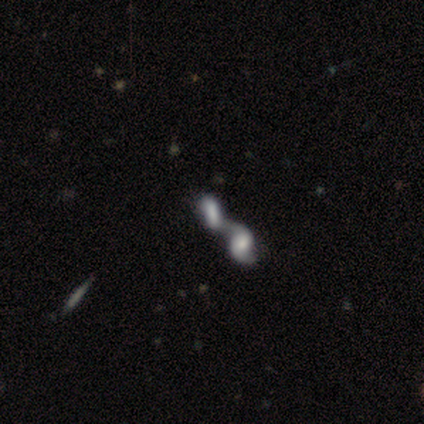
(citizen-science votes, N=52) This appears to be a smooth galaxy with no disk features (50%) that is in between round and cigar-shaped (81%). Merging: merger (85%).